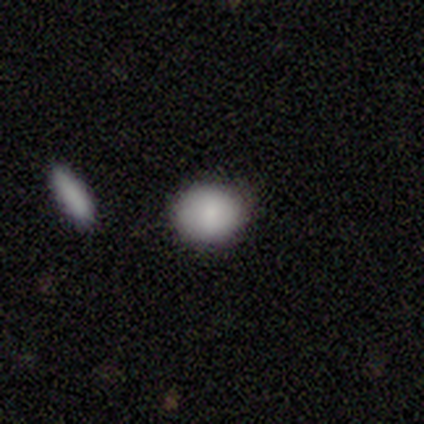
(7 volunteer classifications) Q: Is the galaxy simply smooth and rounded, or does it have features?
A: smooth — 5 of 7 (71%).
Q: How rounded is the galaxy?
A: round — 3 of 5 (60%).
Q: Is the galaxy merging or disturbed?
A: none — 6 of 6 (100%).